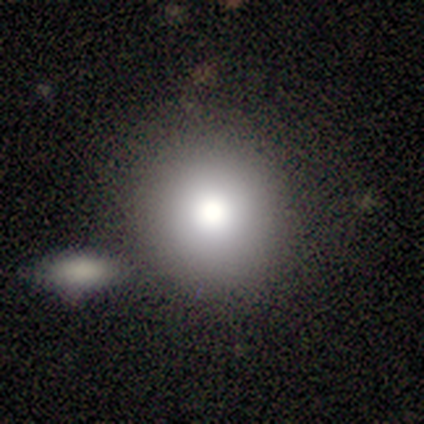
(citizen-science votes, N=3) A featured or disk galaxy (100%) with no bar (100%), no spiral arms (100%) and a large central bulge (67%).

Vote fractions:
- Smooth or featured? featured or disk: 100% / smooth: 0% / star or artifact: 0%
- Edge-on disk? no: 100% / yes: 0%
- Bar? no: 100% / strong: 0% / weak: 0%
- Spiral arms? no: 100% / yes: 0%
- Bulge size? large: 67% / moderate: 33% / dominant: 0% / small: 0% / none: 0%
- Merging? none: 100% / minor disturbance: 0% / major disturbance: 0% / merger: 0%